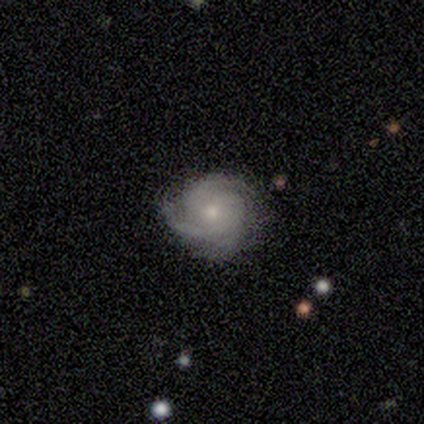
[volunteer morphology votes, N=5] This appears to be a featured or disk galaxy (80%) with no bar (75%), 2 (50%) tight (100%) spiral arms (100%) and a small central bulge (75%). Merging: none (80%).